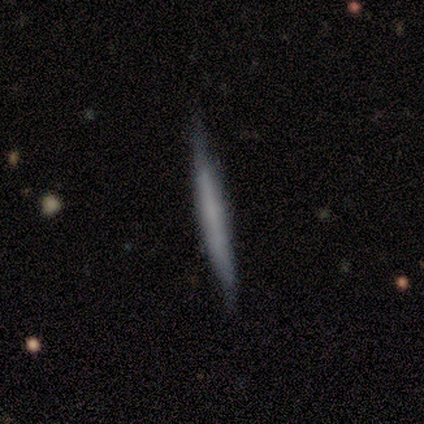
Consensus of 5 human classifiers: A smooth galaxy with no disk features (40%, tied with featured or disk) that is cigar-shaped (100%). Merging: none (100%).